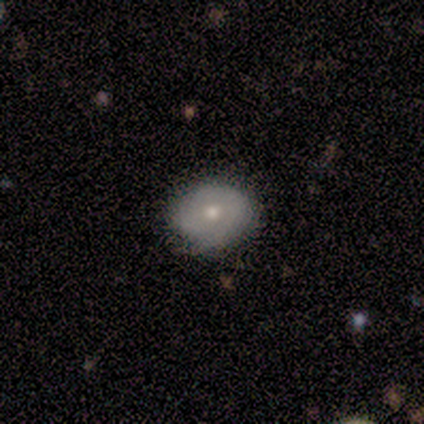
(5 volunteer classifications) Smooth or featured: featured or disk — 80% (smooth — 20%)
Edge-on disk: no — 100%
Bar: no — 50% (strong — 25%)
Spiral arms: yes — 75% (no — 25%)
Spiral winding: tight — 67% (medium — 33%)
Spiral arm count: 1 — 33% (tied with 3 — 33%; can't tell — 33%)
Bulge size: moderate — 75% (small — 25%)
Merging: none — 80% (minor disturbance — 20%)